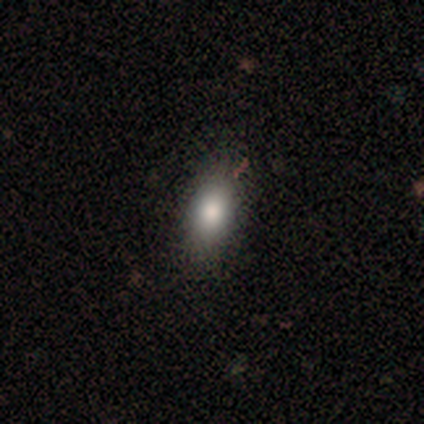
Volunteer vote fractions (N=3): A smooth galaxy with no disk features (100%) that is in between round and cigar-shaped (100%). Merging: minor disturbance (67%).